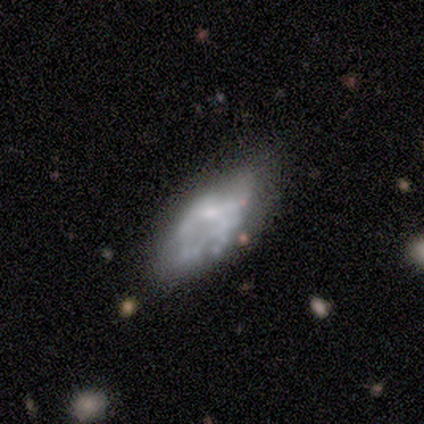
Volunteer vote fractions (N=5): This is likely a smooth galaxy (60%). How rounded: clearly in between (100%). Merging: likely minor disturbance (60%).